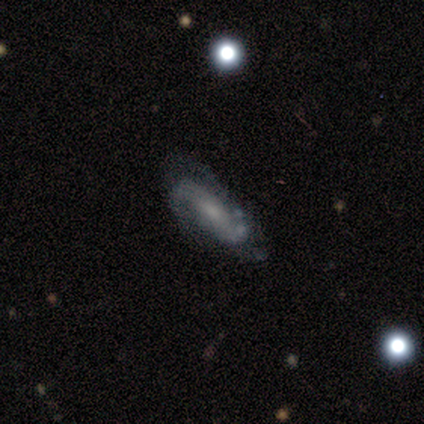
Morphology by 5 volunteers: Smooth or featured: featured or disk — 60% (smooth — 40%)
Edge-on disk: no — 100%
Bar: weak — 67% (no — 33%)
Spiral arms: yes — 100%
Spiral winding: loose — 67% (tight — 33%)
Spiral arm count: 2 — 67% (3 — 33%)
Bulge size: moderate — 67% (small — 33%)
Merging: none — 60% (minor disturbance — 40%)